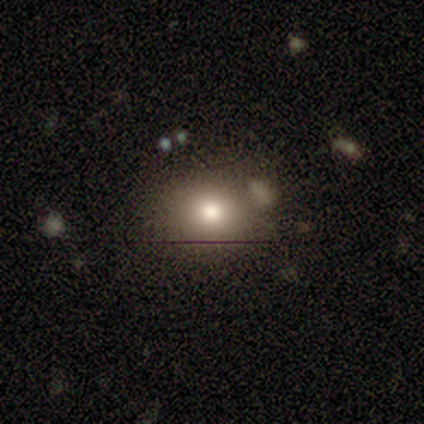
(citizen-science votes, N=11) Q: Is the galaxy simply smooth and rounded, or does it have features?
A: smooth — 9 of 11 (82%).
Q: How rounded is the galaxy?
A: round — 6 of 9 (67%).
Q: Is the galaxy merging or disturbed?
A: none — 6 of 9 (67%).